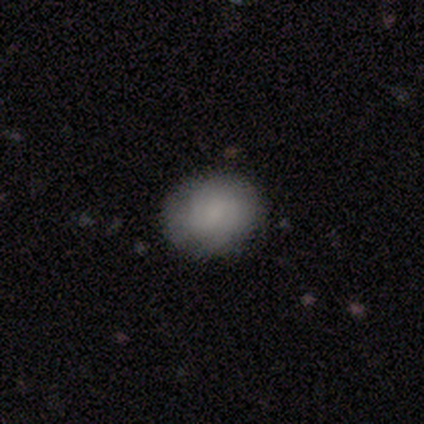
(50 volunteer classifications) Smooth or featured? smooth (72%)
How rounded? round (64%)
Merging? none (91%)